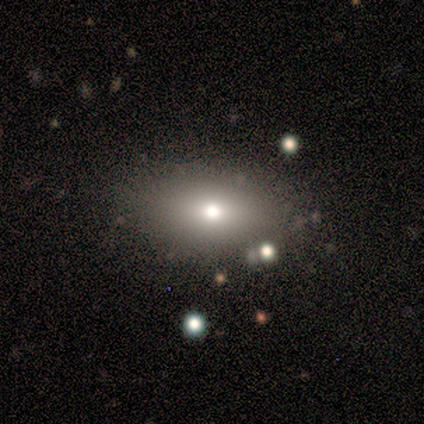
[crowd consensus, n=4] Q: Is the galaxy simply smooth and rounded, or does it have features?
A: smooth — 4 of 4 (100%).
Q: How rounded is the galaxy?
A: in between — 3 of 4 (75%).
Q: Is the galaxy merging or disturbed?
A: none — 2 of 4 (50%, tied with merger).